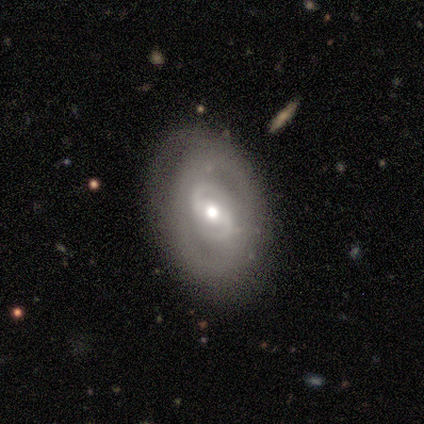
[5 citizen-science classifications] smooth-or-featured: featured or disk: 80% | smooth: 20% | star or artifact: 0%
  disk-edge-on: no: 100% | yes: 0%
    bar: weak: 75% | no: 25% | strong: 0%
    has-spiral-arms: yes: 100% | no: 0%
      spiral-winding: tight: 100% | medium: 0% | loose: 0%
      spiral-arm-count: 2: 100% | 1: 0% | 3: 0% | 4: 0% | more than 4: 0% | can't tell: 0%
    bulge-size: moderate: 100% | dominant: 0% | large: 0% | small: 0% | none: 0%
  merging: none: 100% | minor disturbance: 0% | major disturbance: 0% | merger: 0%